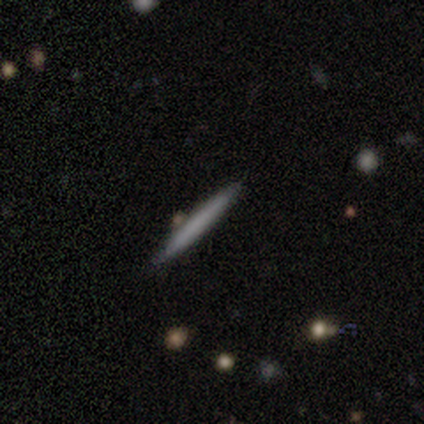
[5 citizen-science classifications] Morphology: type=featured or disk (60%); edge-on=yes (100%); edge-on bulge=none (100%); merging=none (60%).